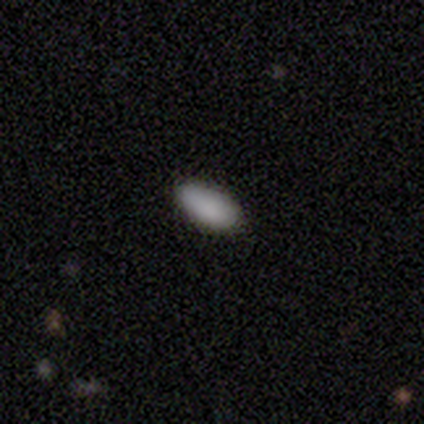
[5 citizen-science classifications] Morphology: type=smooth (100%); roundness=in between (100%); merging=none (100%).